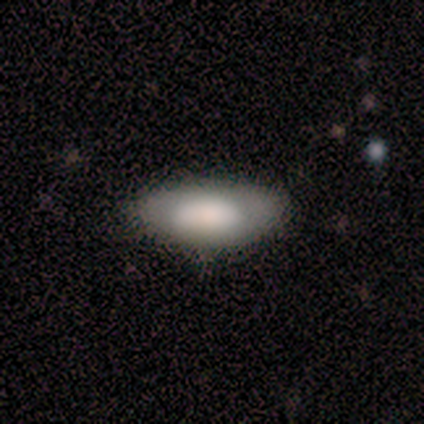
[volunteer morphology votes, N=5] smooth 80%, featured or disk 20%, star or artifact 0%. Down the decision tree: how rounded — in between (100%); merging — none (80%).